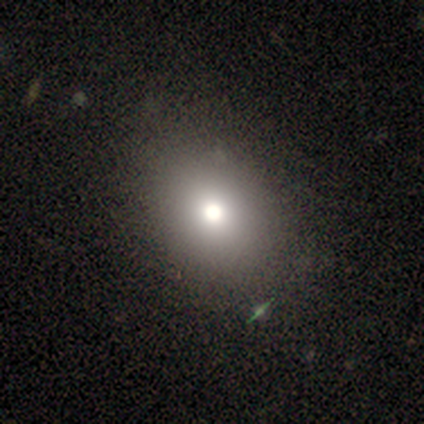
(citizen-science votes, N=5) Morphology: type=smooth (100%); roundness=in between (60%); merging=none (100%).